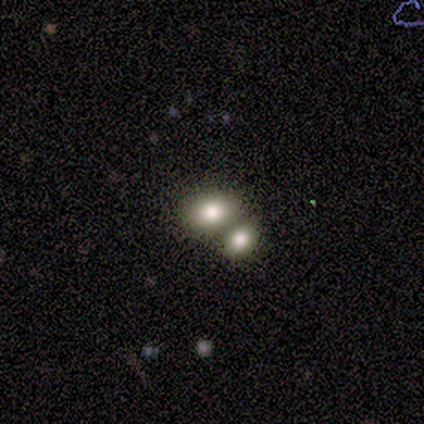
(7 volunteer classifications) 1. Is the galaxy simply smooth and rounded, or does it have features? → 100% smooth, 0% featured or disk, 0% star or artifact.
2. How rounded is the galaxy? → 57% in between, 43% round, 0% cigar-shaped.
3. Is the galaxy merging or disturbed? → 71% merger, 29% none, 0% minor disturbance, 0% major disturbance.